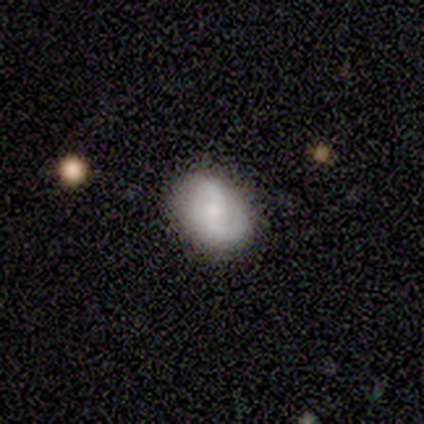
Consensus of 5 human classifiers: smooth-or-featured: featured or disk: 100% | smooth: 0% | star or artifact: 0%
  disk-edge-on: no: 100% | yes: 0%
    bar: weak: 60% | no: 40% | strong: 0%
    has-spiral-arms: yes: 100% | no: 0%
      spiral-winding: loose: 60% | medium: 40% | tight: 0%
      spiral-arm-count: 2: 100% | 1: 0% | 3: 0% | 4: 0% | more than 4: 0% | can't tell: 0%
    bulge-size: small: 60% | moderate: 40% | dominant: 0% | large: 0% | none: 0%
  merging: none: 60% | minor disturbance: 40% | major disturbance: 0% | merger: 0%